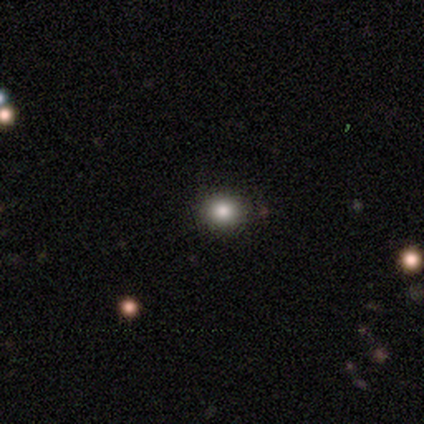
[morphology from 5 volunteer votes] Smooth or featured? 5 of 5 (100%) said smooth. How rounded? 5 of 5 (100%) said round. Merging? 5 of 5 (100%) said none.